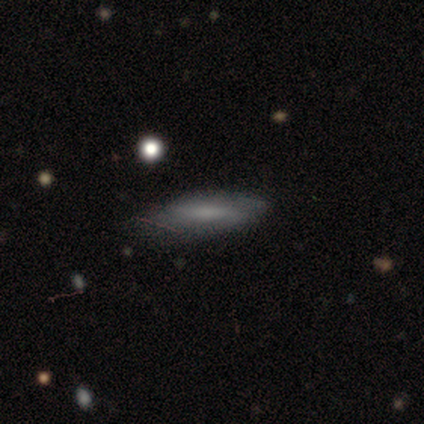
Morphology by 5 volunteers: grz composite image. It shows a smooth galaxy with no disk features (60%) that is in between round and cigar-shaped (67%). Merging: none (40%, tied with minor disturbance).